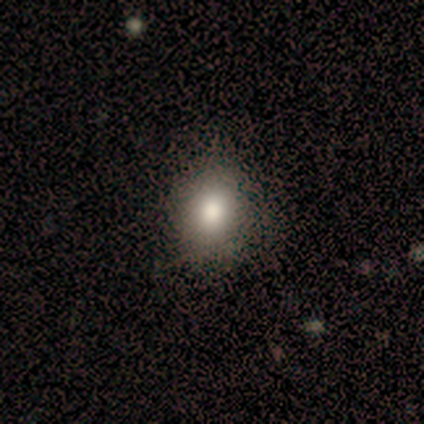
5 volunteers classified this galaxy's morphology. A smooth galaxy with no disk features (100%) that is round (60%).

Vote fractions:
- Smooth or featured? smooth: 100% / featured or disk: 0% / star or artifact: 0%
- How rounded? round: 60% / in between: 40% / cigar-shaped: 0%
- Merging? none: 100% / minor disturbance: 0% / major disturbance: 0% / merger: 0%